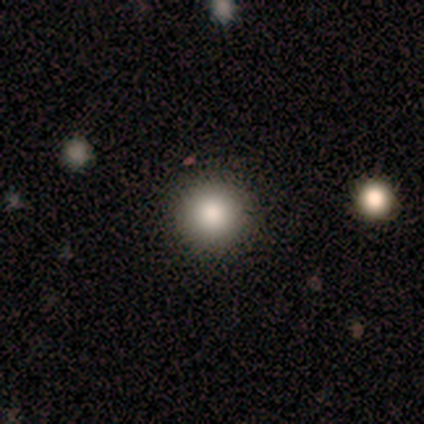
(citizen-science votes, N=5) smooth 60%, star or artifact 40%, featured or disk 0%. Down the decision tree: how rounded — round (100%); merging — none (100%).